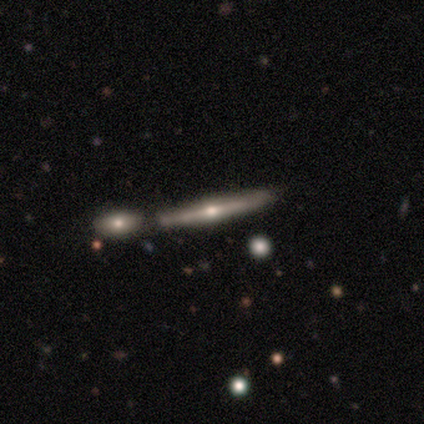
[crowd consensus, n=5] featured or disk 60%, smooth 40%, star or artifact 0%. Down the decision tree: edge-on disk — yes (100%); edge-on bulge — rounded (100%); merging — merger (60%).